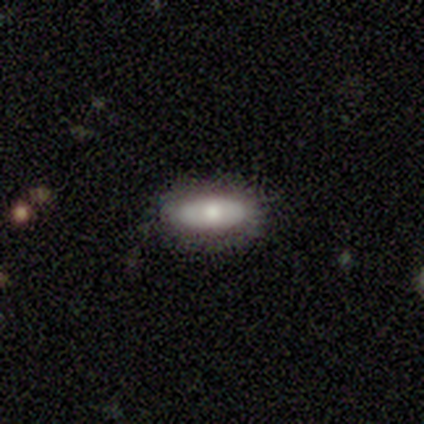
Morphology: type=featured or disk (60%); edge-on=no (100%); bar=no (100%); spiral arms=no (100%); bulge=moderate (67%); merging=none (60%).